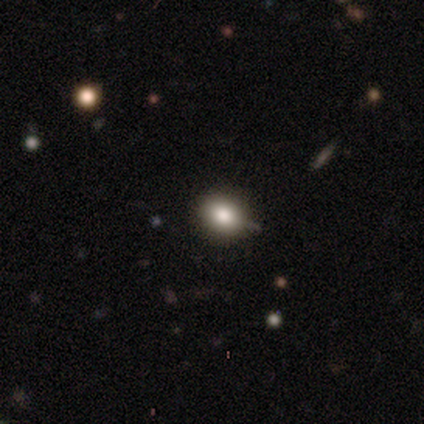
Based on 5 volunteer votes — Overall: smooth (80%). How rounded: round (50%, tied with in between). Merging: none (100%).